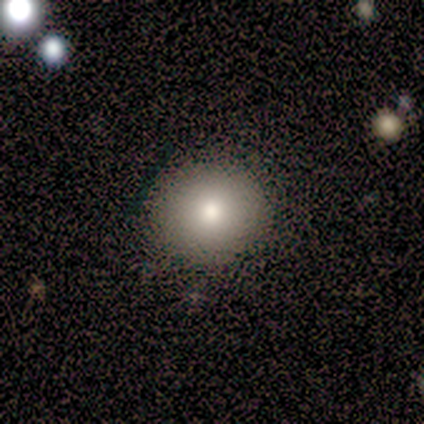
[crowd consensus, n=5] This appears to be a smooth galaxy with no disk features (60%) that is round (67%). Merging: none (50%).